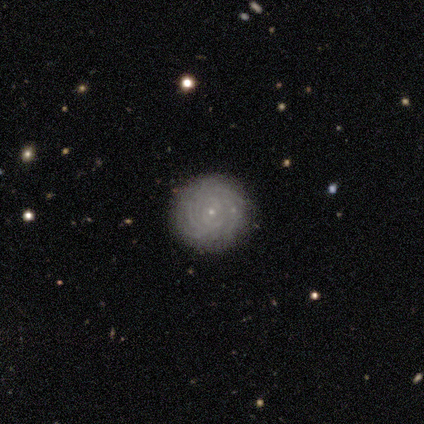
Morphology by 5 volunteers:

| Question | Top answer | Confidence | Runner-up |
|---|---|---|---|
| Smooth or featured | featured or disk | 80% | smooth (20%) |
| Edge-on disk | no | 100% | — |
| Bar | no | 75% | weak (25%) |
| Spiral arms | yes | 100% | — |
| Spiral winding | tight | 100% | — |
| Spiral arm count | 4 | 50% | tied: can't tell (50%) |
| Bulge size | small | 100% | — |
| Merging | none | 80% | major disturbance (20%) |